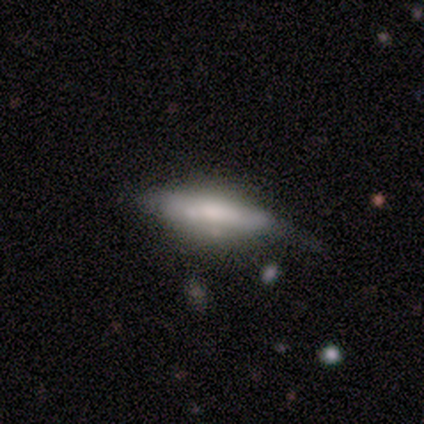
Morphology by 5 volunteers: Overall: smooth (80%). How rounded: cigar-shaped (100%). Merging: minor disturbance (80%).